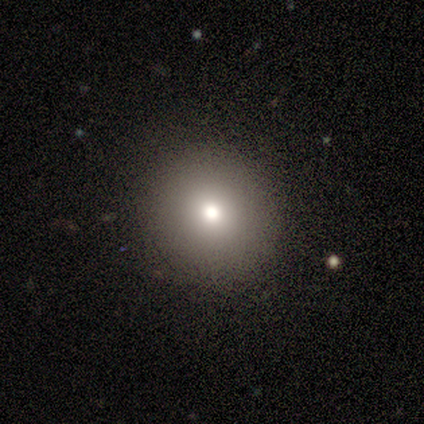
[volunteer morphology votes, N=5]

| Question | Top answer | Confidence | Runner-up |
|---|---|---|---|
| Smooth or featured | smooth | 100% | — |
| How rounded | round | 100% | — |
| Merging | none | 100% | — |